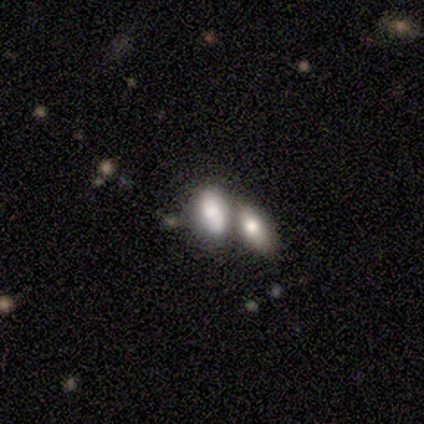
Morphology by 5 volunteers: Smooth or featured? 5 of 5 (100%) said smooth. How rounded? 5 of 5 (100%) said in between. Merging? 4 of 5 (80%) said merger.